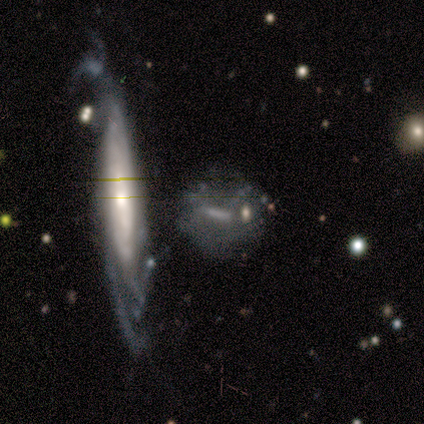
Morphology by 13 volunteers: Q: Smooth or featured?
A: featured or disk (77%); runner-up: smooth (15%)
Q: Edge-on disk?
A: no (90%); runner-up: yes (10%)
Q: Bar?
A: strong (56%); runner-up: weak (44%)
Q: Spiral arms?
A: no (78%); runner-up: yes (22%)
Q: Bulge size?
A: none (78%); runner-up: moderate (22%)
Q: Merging?
A: none (58%); runner-up: minor disturbance (25%)